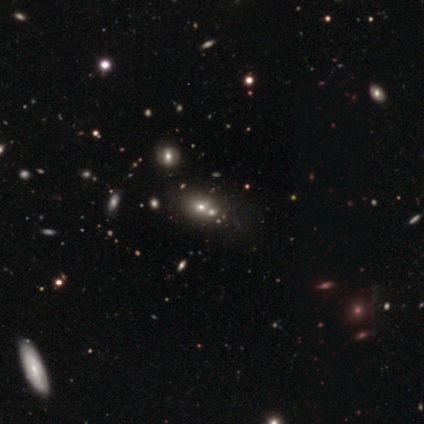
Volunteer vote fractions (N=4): Smooth or featured? smooth (75%)
How rounded? in between (67%)
Merging? merger (67%)